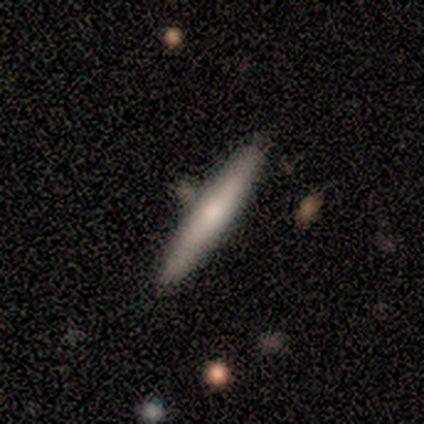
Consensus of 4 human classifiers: Smooth or featured? 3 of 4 (75%) said featured or disk. Edge-on disk? 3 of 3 (100%) said yes. Edge-on bulge? 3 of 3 (100%) said rounded. Merging? 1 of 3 (33%, tied with minor disturbance and merger) said none.